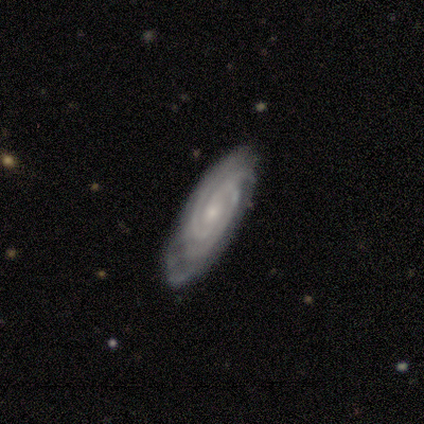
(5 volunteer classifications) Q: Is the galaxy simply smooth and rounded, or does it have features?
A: featured or disk — 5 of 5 (100%).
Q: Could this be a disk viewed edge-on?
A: no — 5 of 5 (100%).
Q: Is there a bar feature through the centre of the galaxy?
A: no — 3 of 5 (60%).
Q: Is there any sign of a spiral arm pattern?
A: yes — 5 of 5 (100%).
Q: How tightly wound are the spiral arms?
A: tight — 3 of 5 (60%).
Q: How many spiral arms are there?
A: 4 — 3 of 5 (60%).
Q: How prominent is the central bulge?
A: small — 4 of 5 (80%).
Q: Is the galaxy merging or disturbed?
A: none — 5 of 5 (100%).